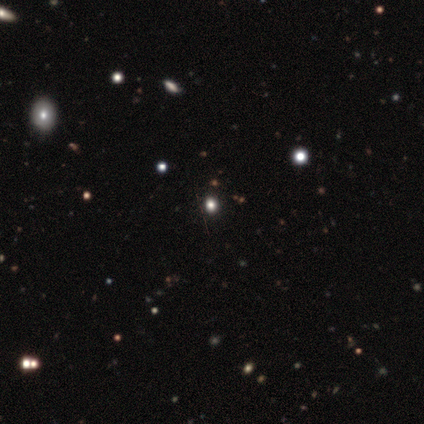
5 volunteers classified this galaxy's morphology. Overall: smooth (60%; star or artifact 40%). How rounded: round (100%). Merging: none (100%).